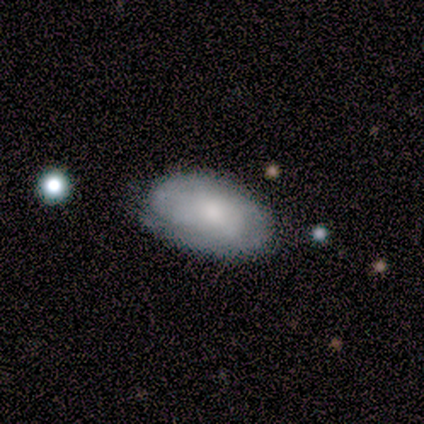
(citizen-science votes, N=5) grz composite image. It shows a smooth galaxy with no disk features (60%) that is in between round and cigar-shaped (67%). Merging: none (80%).